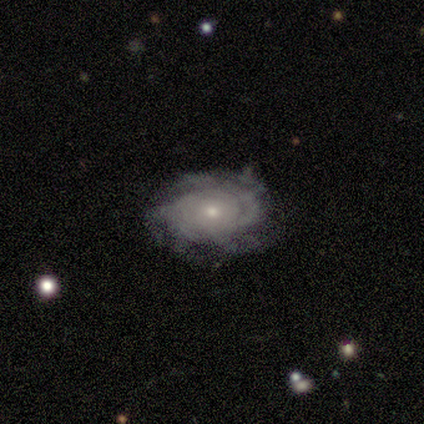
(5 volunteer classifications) A featured or disk galaxy (60%) with no bar (100%), medium (67%) spiral arms (100%) and a small central bulge (100%). Merging: none (100%).